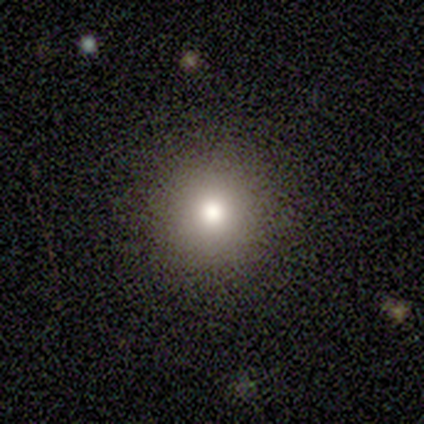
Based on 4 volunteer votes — Smooth or featured? smooth (100%)
How rounded? round (100%)
Merging? none (100%)